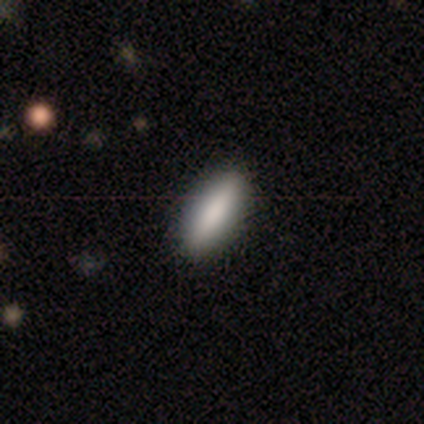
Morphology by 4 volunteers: Overall: smooth (75%). How rounded: in between (67%; cigar-shaped 33%). Merging: none (67%; minor disturbance 33%).